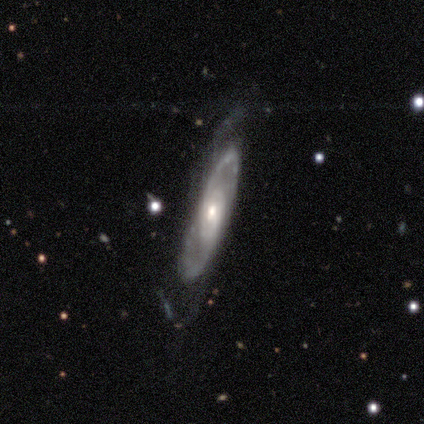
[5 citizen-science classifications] This is clearly a featured or disk galaxy (80%). It is likely not viewed edge-on (75%). Bar: clearly no (100%). Spiral arm pattern: clearly yes (100%). Spiral arm count: likely 2 (67%). Spiral winding: likely loose (67%). Central bulge: likely small (67%). Merging: likely minor disturbance (60%).